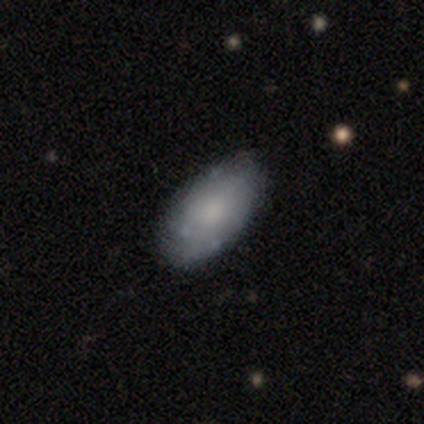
Smooth or featured? smooth (67%)
How rounded? in between (100%)
Merging? none (92%)